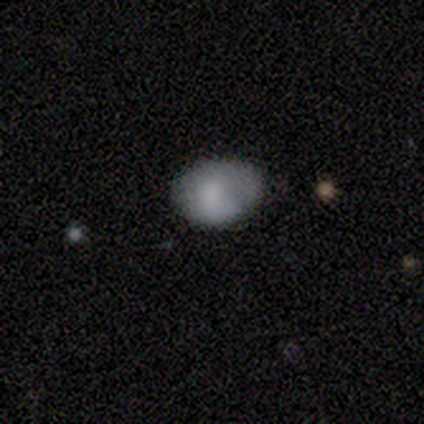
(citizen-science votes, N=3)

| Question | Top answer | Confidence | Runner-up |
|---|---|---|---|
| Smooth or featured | smooth | 100% | — |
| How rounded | round | 100% | — |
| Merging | minor disturbance | 67% | none (33%) |